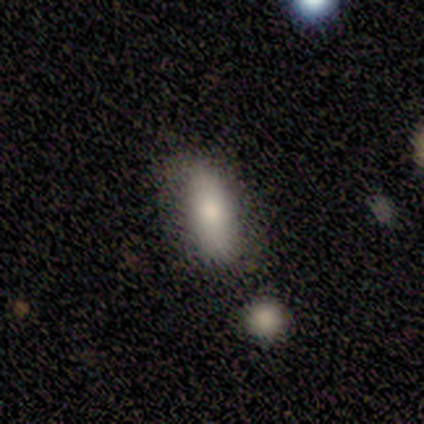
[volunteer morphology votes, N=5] smooth_or_featured: smooth (p=0.80) [alt: featured or disk p=0.20]
how_rounded: in between (p=0.75) [alt: cigar-shaped p=0.25]
merging: none (p=0.80) [alt: merger p=0.20]